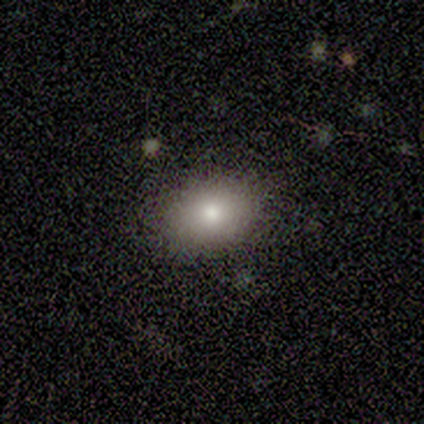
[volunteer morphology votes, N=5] Smooth or featured? 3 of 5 (60%) said smooth. How rounded? 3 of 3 (100%) said in between. Merging? 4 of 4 (100%) said none.